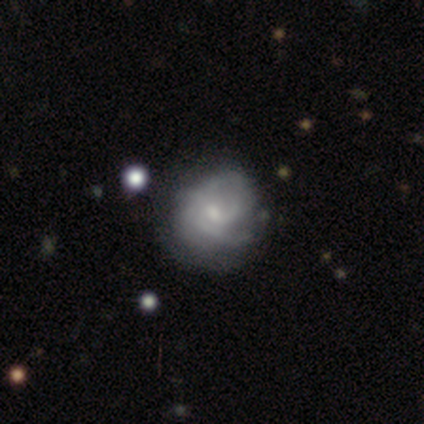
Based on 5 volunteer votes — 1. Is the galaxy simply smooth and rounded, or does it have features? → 80% featured or disk, 20% smooth, 0% star or artifact.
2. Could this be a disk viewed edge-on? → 100% no, 0% yes.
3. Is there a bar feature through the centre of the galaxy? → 50% weak (tied), 50% no (tied), 0% strong.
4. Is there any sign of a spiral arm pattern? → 75% yes, 25% no.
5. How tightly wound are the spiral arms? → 100% tight, 0% medium, 0% loose.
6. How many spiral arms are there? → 67% 3, 33% 4, 0% 1, 0% 2, 0% more than 4, 0% can't tell.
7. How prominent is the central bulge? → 50% moderate (tied), 50% small (tied), 0% dominant, 0% large, 0% none.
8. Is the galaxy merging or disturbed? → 60% none, 40% minor disturbance, 0% major disturbance, 0% merger.